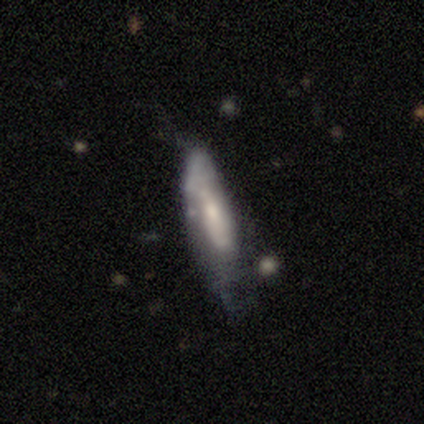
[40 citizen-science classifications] smooth-or-featured: featured or disk: 52% | smooth: 45% | star or artifact: 2%
  disk-edge-on: no: 57% | yes: 43%
    bar: no: 58% | weak: 42% | strong: 0%
    has-spiral-arms: yes: 58% | no: 42%
      spiral-winding: medium: 57% | loose: 29% | tight: 14%
      spiral-arm-count: can't tell: 86% | 2: 14% | 1: 0% | 3: 0% | 4: 0% | more than 4: 0%
    bulge-size: moderate: 50% | small: 42% | none: 8% | dominant: 0% | large: 0%
  merging: none: 31% (tied) | major disturbance: 31% (tied) | minor disturbance: 28% | merger: 10%